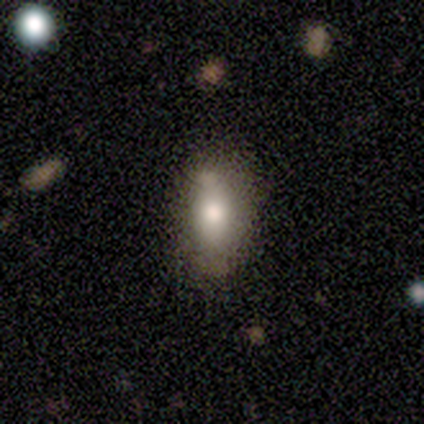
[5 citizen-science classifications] Morphology: type=smooth (80%); roundness=in between (100%); merging=none (80%).